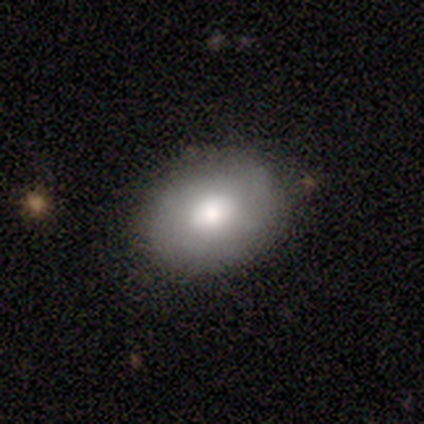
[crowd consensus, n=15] smooth 80%, featured or disk 20%, star or artifact 0%. Down the decision tree: how rounded — in between (75%); merging — none (87%).